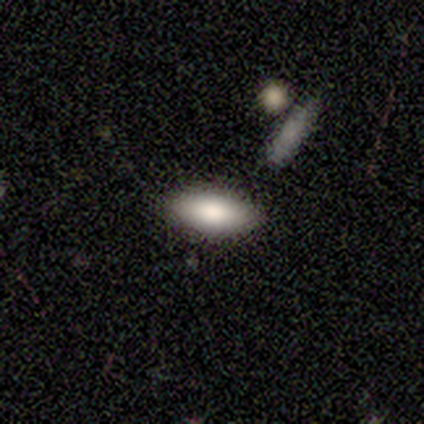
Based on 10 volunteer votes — Morphology: type=smooth (90%); roundness=in between (89%); merging=none (89%).